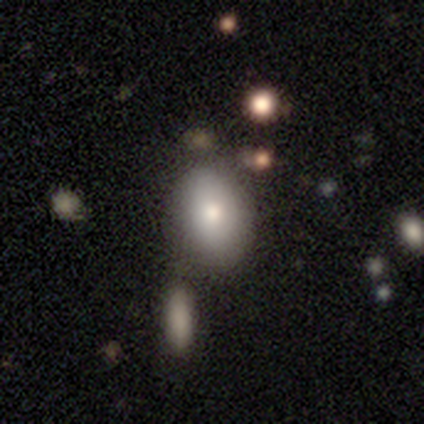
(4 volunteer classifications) Q: Smooth or featured?
A: smooth (75%); runner-up: star or artifact (25%)
Q: How rounded?
A: in between (67%); runner-up: round (33%)
Q: Merging?
A: none (67%); runner-up: minor disturbance (33%)